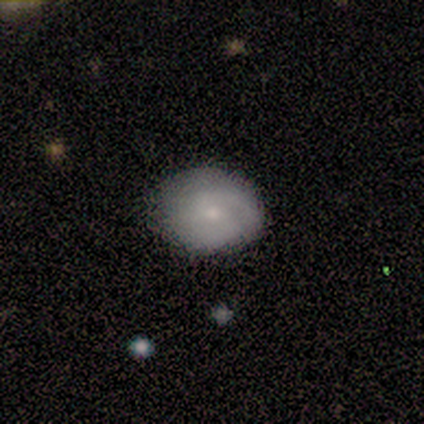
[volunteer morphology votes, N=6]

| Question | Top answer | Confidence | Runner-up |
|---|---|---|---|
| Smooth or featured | smooth | 50% | tied: featured or disk (50%) |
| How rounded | in between | 67% | round (33%) |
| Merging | none | 100% | — |